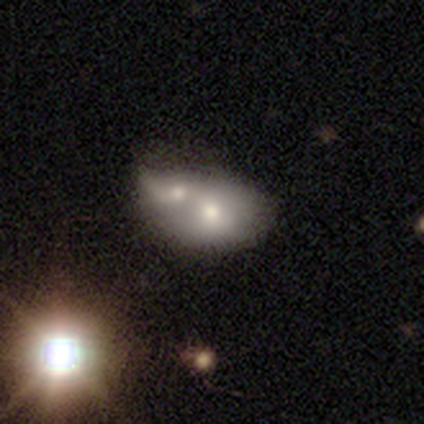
Smooth or featured? 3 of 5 (60%) said smooth. How rounded? 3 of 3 (100%) said in between. Merging? 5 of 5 (100%) said merger.